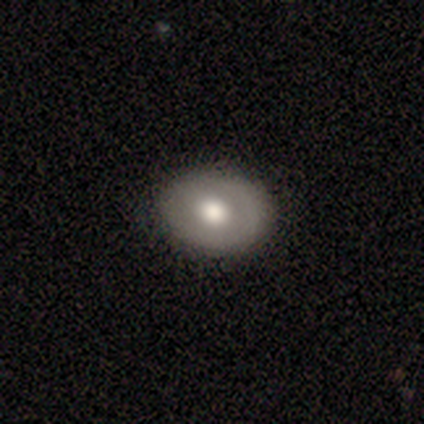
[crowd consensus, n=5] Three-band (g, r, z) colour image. It shows a featured or disk galaxy (80%) with no bar (75%), no spiral arms (100%) and a large central bulge (50%, tied with moderate). Merging: none (100%).